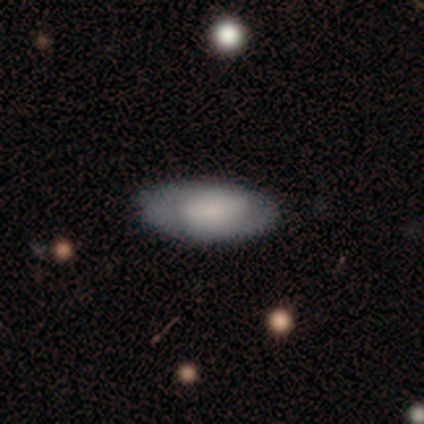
Morphology: type=smooth (100%); roundness=in between (83%); merging=none (100%).